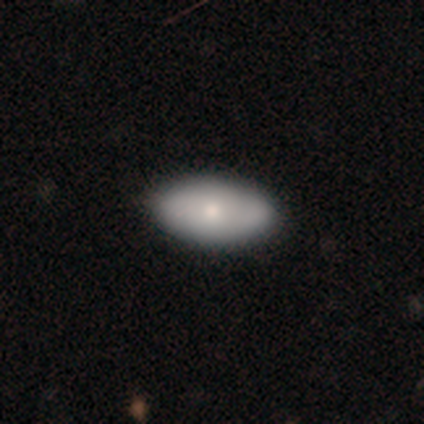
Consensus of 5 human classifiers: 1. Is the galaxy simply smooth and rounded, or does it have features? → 80% smooth, 20% featured or disk, 0% star or artifact.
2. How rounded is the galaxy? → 75% in between, 25% cigar-shaped, 0% round.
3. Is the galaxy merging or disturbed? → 80% none, 20% minor disturbance, 0% major disturbance, 0% merger.